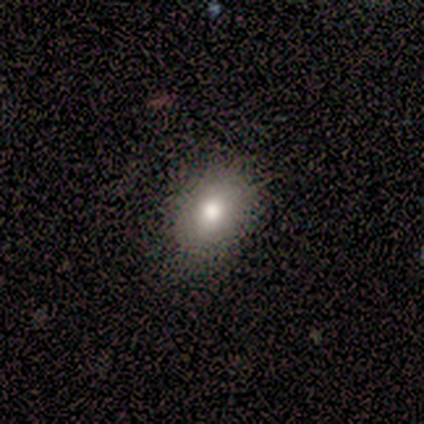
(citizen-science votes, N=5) Smooth or featured? 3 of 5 (60%) said smooth. How rounded? 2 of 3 (67%) said in between. Merging? 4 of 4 (100%) said none.